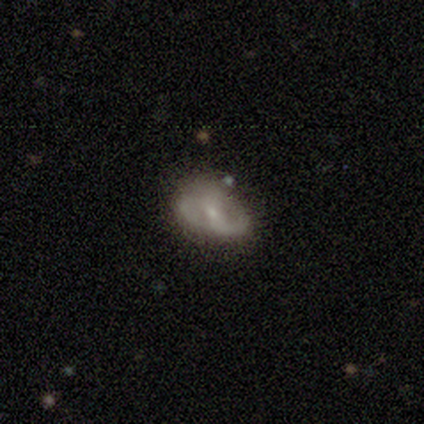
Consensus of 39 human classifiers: featured or disk 69%, smooth 31%, star or artifact 0%. Down the decision tree: edge-on disk — no (96%); bar — weak (46%); spiral arms — yes (85%); spiral arm count — 2 (77%); spiral winding — medium (45%); bulge size — small (69%); merging — none (54%).